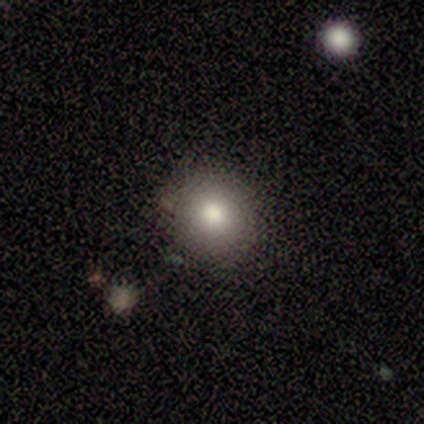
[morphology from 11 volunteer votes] A smooth galaxy with no disk features (73%) that is round (88%).

Vote fractions:
- Smooth or featured? smooth: 73% / featured or disk: 18% / star or artifact: 9%
- How rounded? round: 88% / in between: 12% / cigar-shaped: 0%
- Merging? none: 80% / minor disturbance: 20% / major disturbance: 0% / merger: 0%